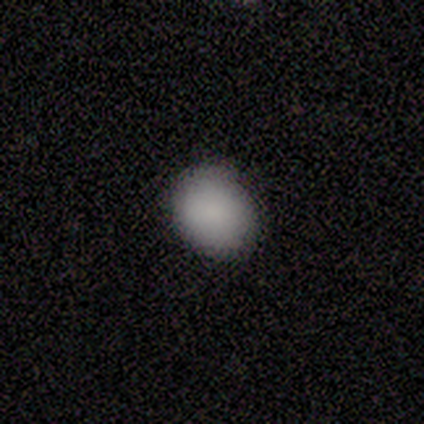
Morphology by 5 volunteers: smooth_or_featured: smooth (p=0.80) [alt: featured or disk p=0.20]
how_rounded: in between (p=0.75) [alt: round p=0.25]
merging: none (p=0.80) [alt: minor disturbance p=0.20]